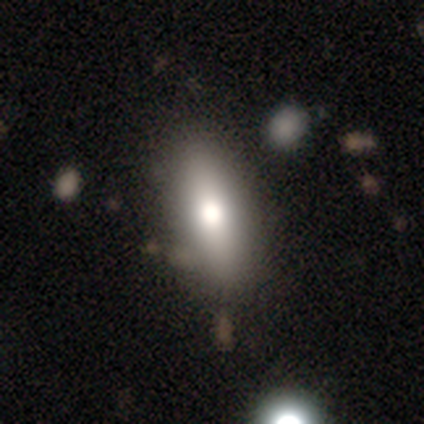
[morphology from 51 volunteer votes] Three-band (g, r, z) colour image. It shows a smooth galaxy with no disk features (78%) that is in between round and cigar-shaped (60%). Merging: none (80%).